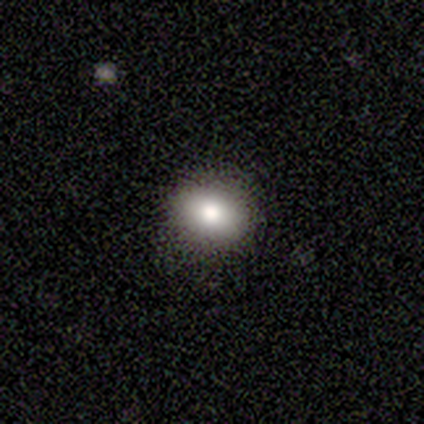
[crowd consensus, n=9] A smooth galaxy with no disk features (67%) that is round (50%, tied with in between).

Vote fractions:
- Smooth or featured? smooth: 67% / featured or disk: 22% / star or artifact: 11%
- How rounded? round: 50% (tied) / in between: 50% (tied) / cigar-shaped: 0%
- Merging? none: 100% / minor disturbance: 0% / major disturbance: 0% / merger: 0%